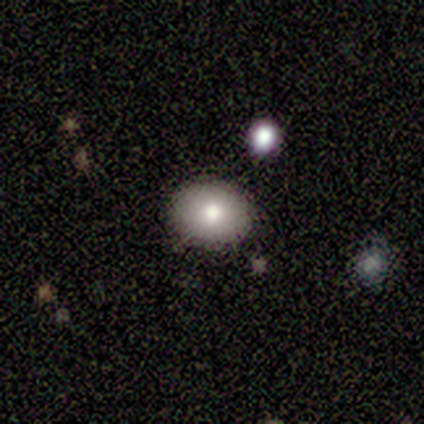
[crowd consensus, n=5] This appears to be a smooth galaxy with no disk features (60%) that is in between round and cigar-shaped (67%). Merging: none (100%).